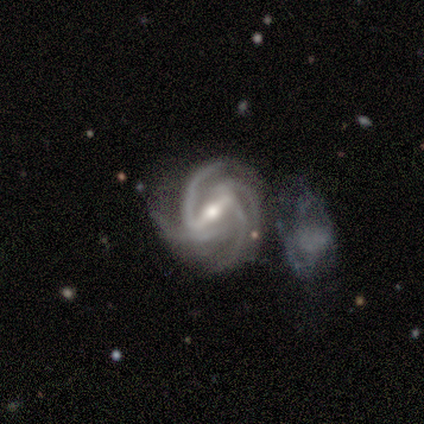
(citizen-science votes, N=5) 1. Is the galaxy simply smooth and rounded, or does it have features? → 80% featured or disk, 20% star or artifact, 0% smooth.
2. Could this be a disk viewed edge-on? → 100% no, 0% yes.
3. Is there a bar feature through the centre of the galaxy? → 100% strong, 0% weak, 0% no.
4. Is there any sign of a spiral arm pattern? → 100% yes, 0% no.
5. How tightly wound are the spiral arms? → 75% medium, 25% tight, 0% loose.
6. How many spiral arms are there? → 75% 4, 25% 2, 0% 1, 0% 3, 0% more than 4, 0% can't tell.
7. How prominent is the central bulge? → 75% small, 25% moderate, 0% dominant, 0% large, 0% none.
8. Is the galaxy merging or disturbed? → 75% minor disturbance, 25% none, 0% major disturbance, 0% merger.